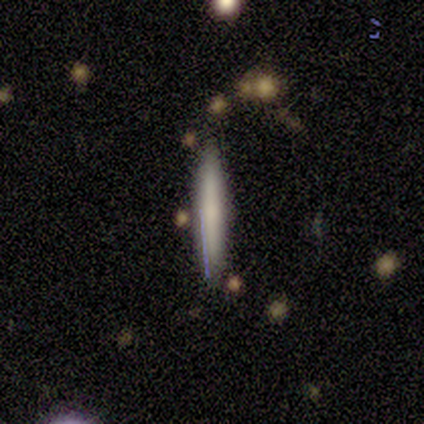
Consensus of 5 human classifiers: A featured or disk galaxy (60%) viewed edge-on (67%) with no central bulge (50%, tied with rounded). Merging: none (80%).